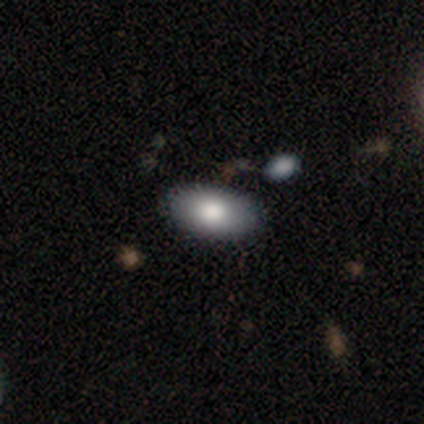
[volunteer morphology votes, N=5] A smooth galaxy with no disk features (60%) that is in between round and cigar-shaped (100%).

Vote fractions:
- Smooth or featured? smooth: 60% / featured or disk: 40% / star or artifact: 0%
- How rounded? in between: 100% / round: 0% / cigar-shaped: 0%
- Merging? none: 60% / minor disturbance: 20% / merger: 20% / major disturbance: 0%